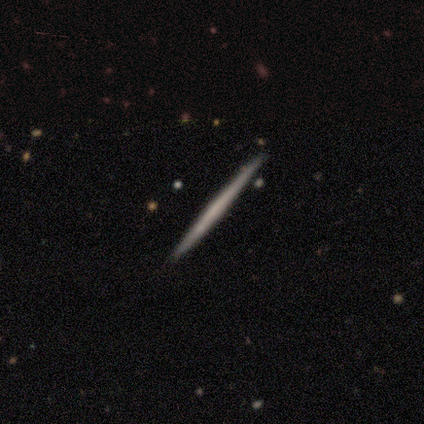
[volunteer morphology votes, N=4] A smooth galaxy with no disk features (50%, tied with featured or disk) that is cigar-shaped (100%). Merging: none (75%).